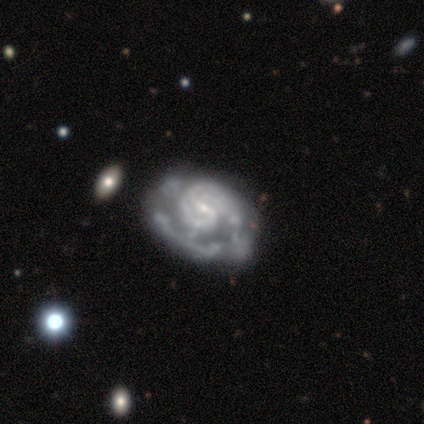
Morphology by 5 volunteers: A featured or disk galaxy (60%) with a strong bar (33%, tied with weak and no), 4 (50%, tied with can't tell) tight (50%, tied with medium) spiral arms (67%) and a small central bulge (67%). Merging: minor disturbance (75%).